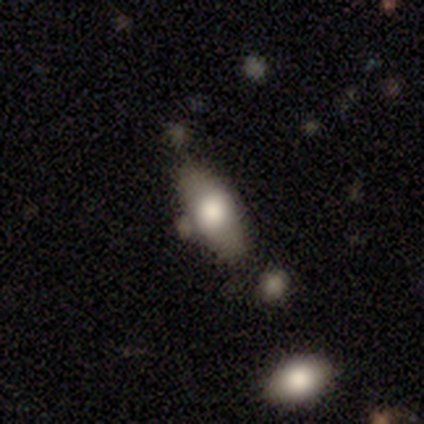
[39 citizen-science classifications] A smooth galaxy with no disk features (64%) that is in between round and cigar-shaped (76%). Merging: none (58%).